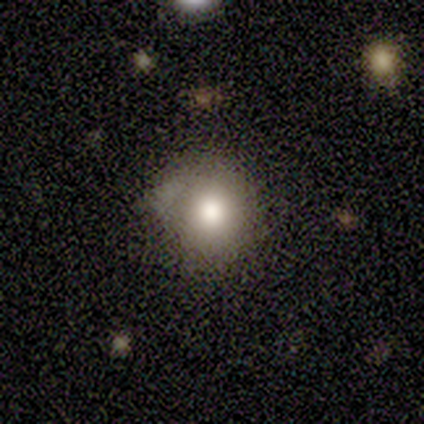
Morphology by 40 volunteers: smooth 85%, featured or disk 12%, star or artifact 2%. Down the decision tree: how rounded — round (91%); merging — minor disturbance (46%).